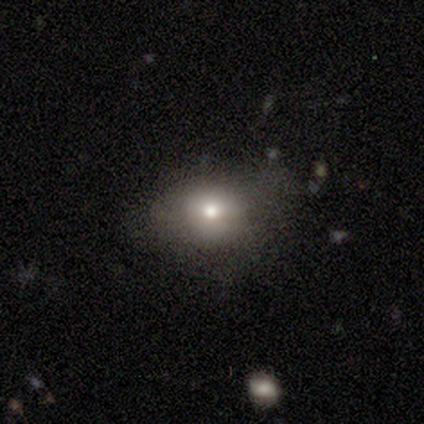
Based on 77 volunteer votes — smooth-or-featured: smooth: 75% | featured or disk: 18% | star or artifact: 6%
  how-rounded: in between: 60% | round: 40% | cigar-shaped: 0%
  merging: none: 35% | minor disturbance: 8% | major disturbance: 7% | merger: 6%